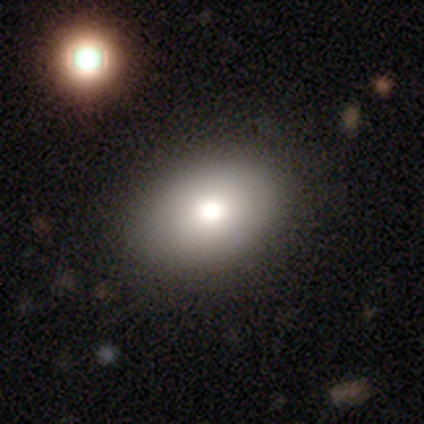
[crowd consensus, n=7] Smooth or featured: smooth — 100%
How rounded: in between — 100%
Merging: none — 100%